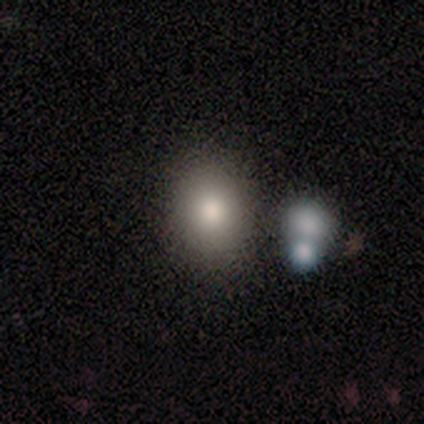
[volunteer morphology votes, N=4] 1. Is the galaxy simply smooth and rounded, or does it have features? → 75% smooth, 25% featured or disk, 0% star or artifact.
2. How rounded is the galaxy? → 67% in between, 33% round, 0% cigar-shaped.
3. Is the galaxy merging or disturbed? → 75% none, 25% minor disturbance, 0% major disturbance, 0% merger.